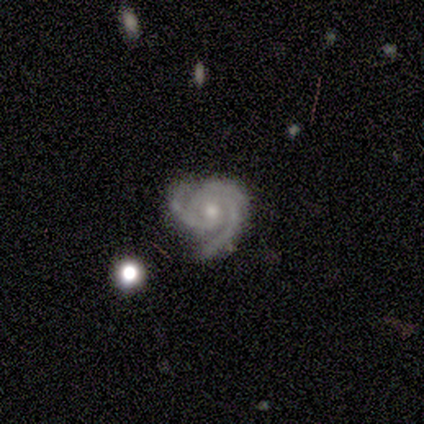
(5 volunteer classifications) Volunteers were most divided on "spiral arm count": 2: 60%, 3: 40%, 1: 0%, 4: 0%, more than 4: 0%, can't tell: 0%. More confident: smooth or featured — featured or disk (100%); edge-on disk — no (100%); bar — no (100%); spiral arms — yes (100%); spiral winding — tight (80%); merging — none (80%); bulge size — moderate (60%).